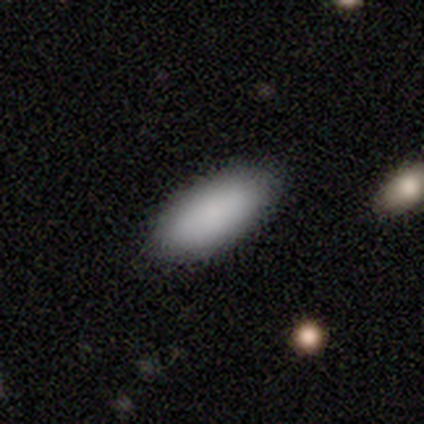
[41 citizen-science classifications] smooth 90%, star or artifact 10%, featured or disk 0%. Down the decision tree: how rounded — in between (86%); merging — none (92%).